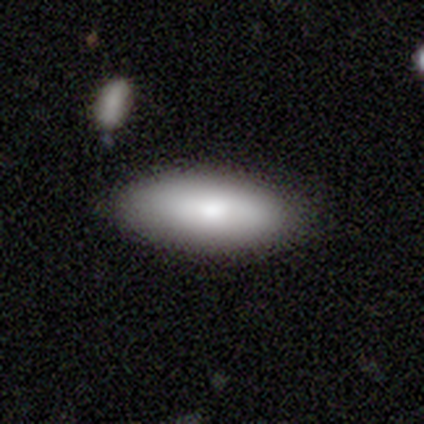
Overall: smooth (100%). How rounded: in between (67%; cigar-shaped 33%). Merging: none (100%).